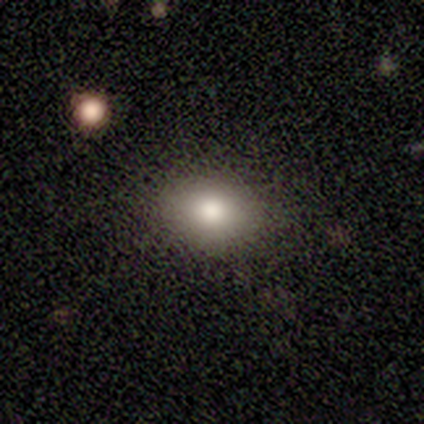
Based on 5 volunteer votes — A featured or disk galaxy (40%, tied with star or artifact) with no bar (100%), no spiral arms (100%) and a moderate central bulge (100%). Merging: none (100%).